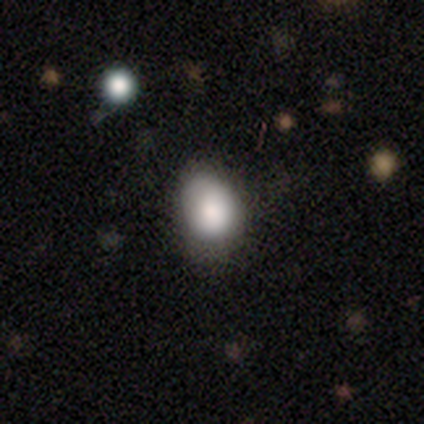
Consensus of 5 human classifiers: This appears to be a smooth galaxy with no disk features (100%) that is in between round and cigar-shaped (60%). Merging: none (60%).